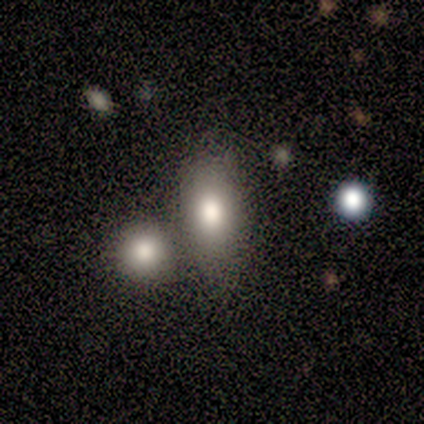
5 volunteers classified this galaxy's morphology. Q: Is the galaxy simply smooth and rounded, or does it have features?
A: smooth — 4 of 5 (80%).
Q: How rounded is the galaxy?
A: in between — 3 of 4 (75%).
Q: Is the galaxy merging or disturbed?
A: none — 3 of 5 (60%).